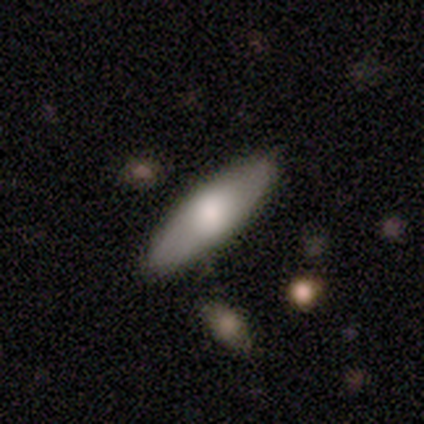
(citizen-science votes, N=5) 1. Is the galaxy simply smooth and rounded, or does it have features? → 80% smooth, 20% star or artifact, 0% featured or disk.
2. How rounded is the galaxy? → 75% cigar-shaped, 25% in between, 0% round.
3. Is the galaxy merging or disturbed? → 75% none, 25% minor disturbance, 0% major disturbance, 0% merger.